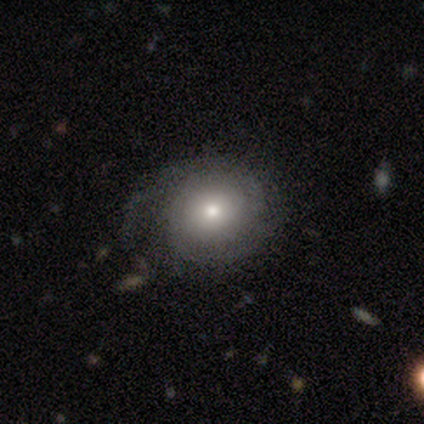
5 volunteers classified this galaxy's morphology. Smooth or featured? featured or disk (80%)
Edge-on disk? no (100%)
Bar? no (75%)
Spiral arms? yes (100%)
Spiral winding? tight (50%, tied with medium)
Spiral arm count? 2 (50%)
Bulge size? moderate (50%)
Merging? none (75%)